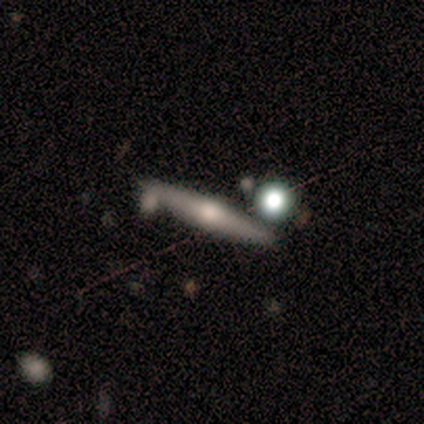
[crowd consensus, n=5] This is likely a smooth galaxy (60%). How rounded: clearly cigar-shaped (100%). Merging: clearly none (80%).